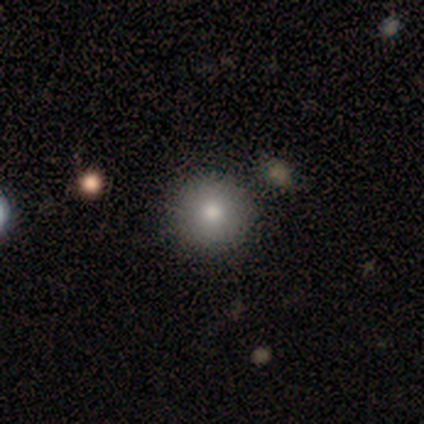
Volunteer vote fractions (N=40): A smooth galaxy with no disk features (90%) that is round (100%). Merging: none (100%).